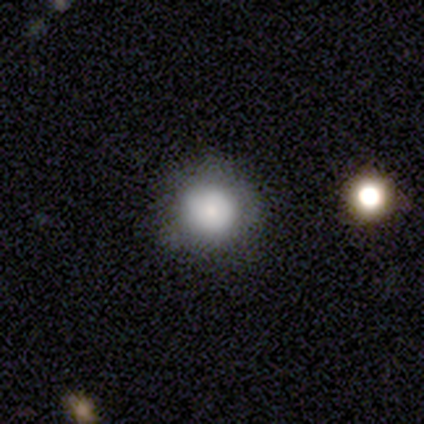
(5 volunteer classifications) A smooth galaxy with no disk features (60%) that is round (67%).

Vote fractions:
- Smooth or featured? smooth: 60% / featured or disk: 40% / star or artifact: 0%
- How rounded? round: 67% / in between: 33% / cigar-shaped: 0%
- Merging? none: 80% / minor disturbance: 20% / major disturbance: 0% / merger: 0%